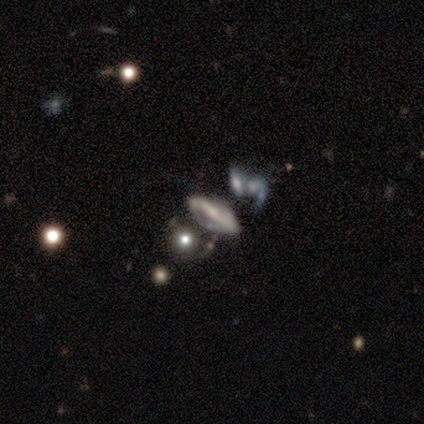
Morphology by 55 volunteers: smooth-or-featured: featured or disk: 78% | smooth: 16% | star or artifact: 5%
  disk-edge-on: no: 81% | yes: 19%
    bar: strong: 71% | no: 17% | weak: 11%
    has-spiral-arms: yes: 71% | no: 29%
      spiral-winding: loose: 40% | medium: 32% | tight: 28%
      spiral-arm-count: 2: 68% | can't tell: 24% | 1: 4% | 3: 4% | 4: 0% | more than 4: 0%
    bulge-size: small: 49% | moderate: 26% | none: 26% | dominant: 0% | large: 0%
  merging: none: 33% | merger: 27% | major disturbance: 23% | minor disturbance: 17%